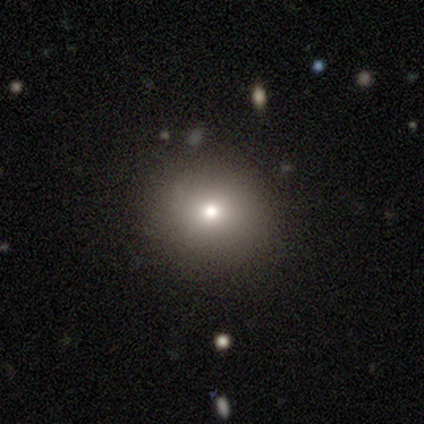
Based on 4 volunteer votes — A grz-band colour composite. It shows a smooth galaxy with no disk features (75%) that is round (100%). Merging: none (100%).